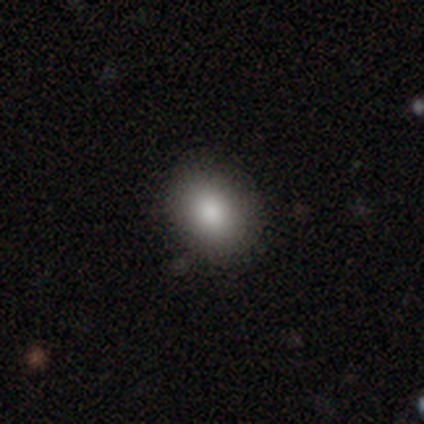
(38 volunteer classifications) This appears to be a smooth galaxy with no disk features (84%) that is in between round and cigar-shaped (62%). Merging: none (91%).